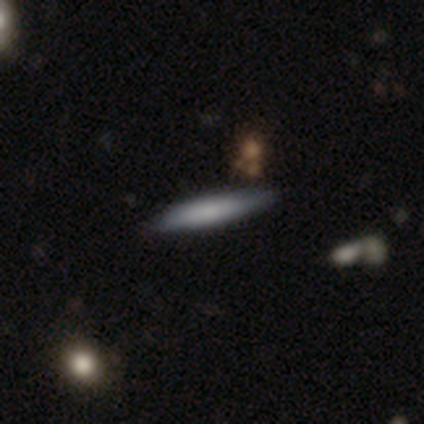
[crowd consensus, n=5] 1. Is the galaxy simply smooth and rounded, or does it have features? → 80% smooth, 20% featured or disk, 0% star or artifact.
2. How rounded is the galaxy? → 100% cigar-shaped, 0% round, 0% in between.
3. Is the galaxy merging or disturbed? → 60% none, 40% minor disturbance, 0% major disturbance, 0% merger.